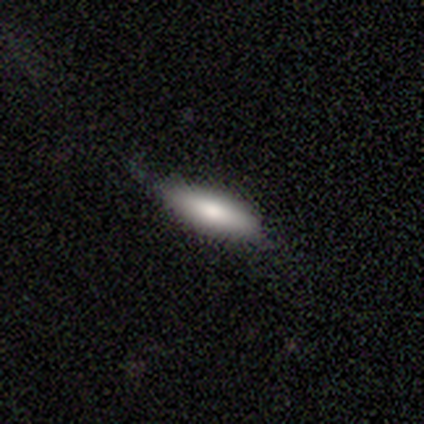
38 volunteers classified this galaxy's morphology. smooth_or_featured: smooth (p=0.79) [alt: featured or disk p=0.18]
how_rounded: cigar-shaped (p=0.60) [alt: in between p=0.40]
merging: none (p=0.65) [alt: minor disturbance p=0.32]